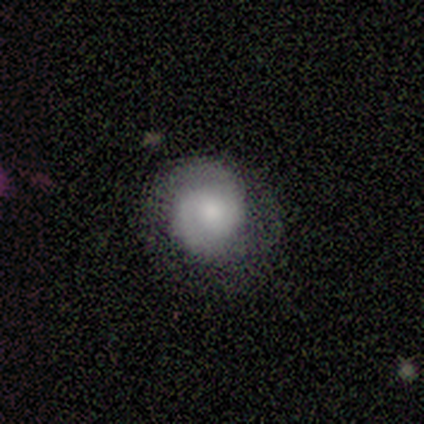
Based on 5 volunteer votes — Smooth or featured?
  - featured or disk: 80% *
  - smooth: 20%
  - star or artifact: 0%
Edge-on disk?
  - no: 100% *
  - yes: 0%
Bar?
  - no: 100% *
  - strong: 0%
  - weak: 0%
Spiral arms?
  - yes: 100% *
  - no: 0%
Spiral winding?
  - loose: 50% *
  - tight: 25%
  - medium: 25%
Spiral arm count?
  - 2: 75% *
  - 1: 25%
  - 3: 0%
  - 4: 0%
  - more than 4: 0%
  - can't tell: 0%
Bulge size?
  - large: 50% *
  - moderate: 25%
  - small: 25%
  - dominant: 0%
  - none: 0%
Merging?
  - none: 60% *
  - major disturbance: 40%
  - minor disturbance: 0%
  - merger: 0%